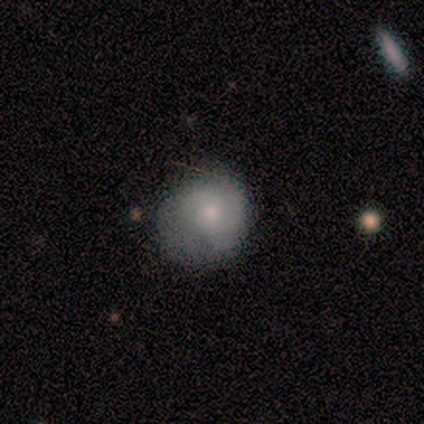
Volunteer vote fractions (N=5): Smooth or featured? featured or disk (60%)
Edge-on disk? no (100%)
Bar? no (100%)
Spiral arms? yes (100%)
Spiral winding? medium (100%)
Spiral arm count? 2 (67%)
Bulge size? moderate (67%)
Merging? none (80%)